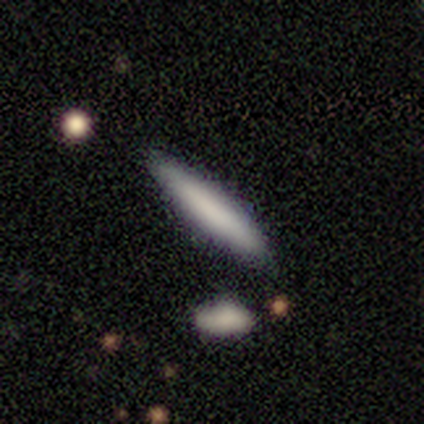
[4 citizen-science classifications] smooth-or-featured: smooth: 50% (tied) | featured or disk: 50% (tied) | star or artifact: 0%
  how-rounded: in between: 100% | round: 0% | cigar-shaped: 0%
  merging: none: 75% | major disturbance: 25% | minor disturbance: 0% | merger: 0%